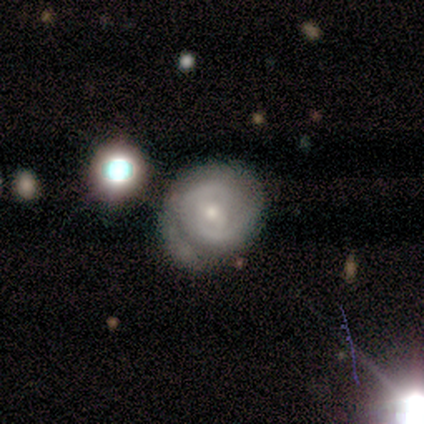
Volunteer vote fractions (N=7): Smooth or featured? 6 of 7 (86%) said featured or disk. Edge-on disk? 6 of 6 (100%) said no. Bar? 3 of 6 (50%, tied with no) said weak. Spiral arms? 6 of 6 (100%) said yes. Spiral winding? 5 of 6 (83%) said tight. Spiral arm count? 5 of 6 (83%) said 2. Bulge size? 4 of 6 (67%) said small. Merging? 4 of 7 (57%) said none.